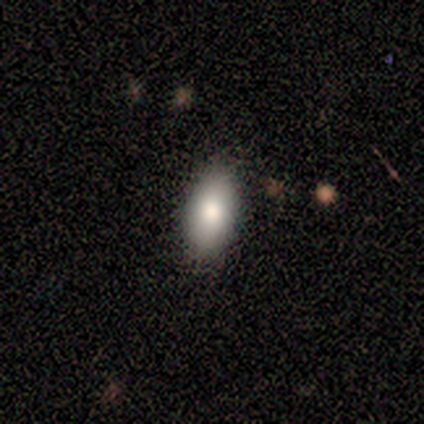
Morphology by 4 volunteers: A smooth galaxy with no disk features (100%) that is in between round and cigar-shaped (100%).

Vote fractions:
- Smooth or featured? smooth: 100% / featured or disk: 0% / star or artifact: 0%
- How rounded? in between: 100% / round: 0% / cigar-shaped: 0%
- Merging? none: 100% / minor disturbance: 0% / major disturbance: 0% / merger: 0%